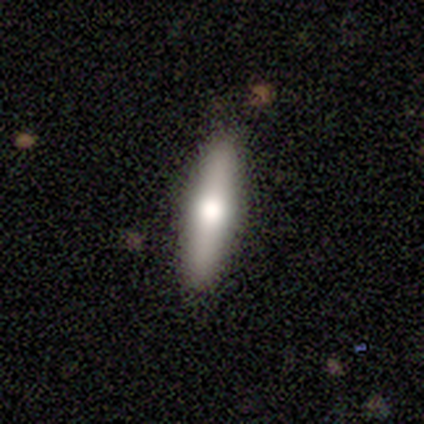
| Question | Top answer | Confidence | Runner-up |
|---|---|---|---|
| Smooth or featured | smooth | 50% | featured or disk (42%) |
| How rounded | cigar-shaped | 79% | in between (21%) |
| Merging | none | 86% | minor disturbance (6%) |